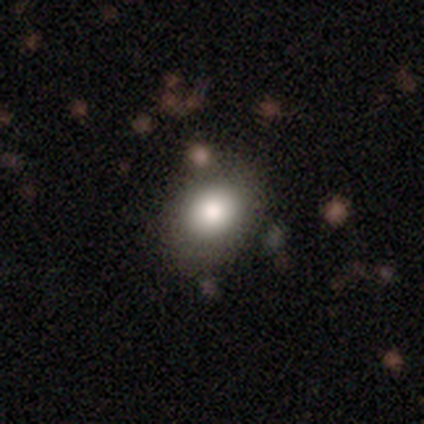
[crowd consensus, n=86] Volunteers were most divided on "how rounded": round: 51%, in between: 49%, cigar-shaped: 0%. More confident: smooth or featured — smooth (86%); merging — none (67%).